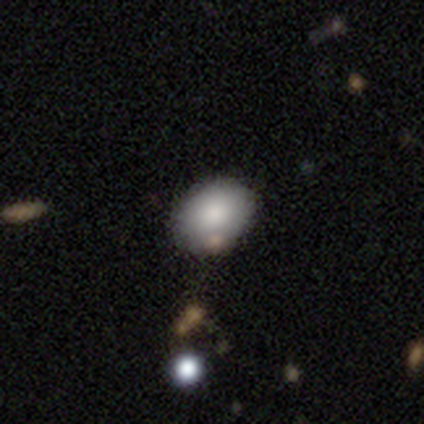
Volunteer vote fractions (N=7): smooth_or_featured: smooth (p=0.86) [alt: featured or disk p=0.14]
how_rounded: in between (p=0.83) [alt: round p=0.17]
merging: none (p=0.71) [alt: minor disturbance p=0.29]